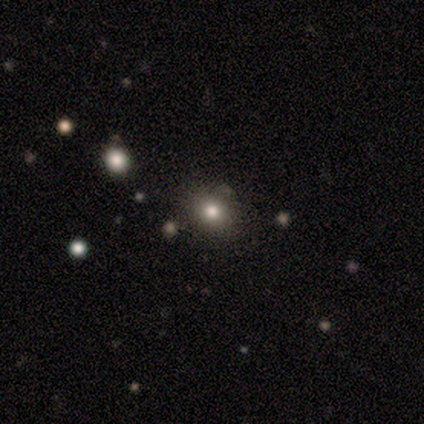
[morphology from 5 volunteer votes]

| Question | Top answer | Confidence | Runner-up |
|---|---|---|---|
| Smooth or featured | star or artifact | 60% | smooth (40%) |